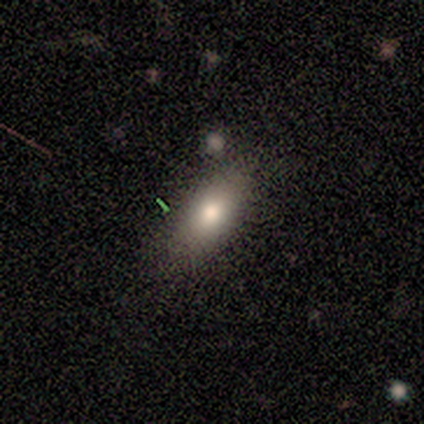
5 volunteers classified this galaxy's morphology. smooth 100%, featured or disk 0%, star or artifact 0%. Down the decision tree: how rounded — in between (60%); merging — none (40%, tied with minor disturbance).